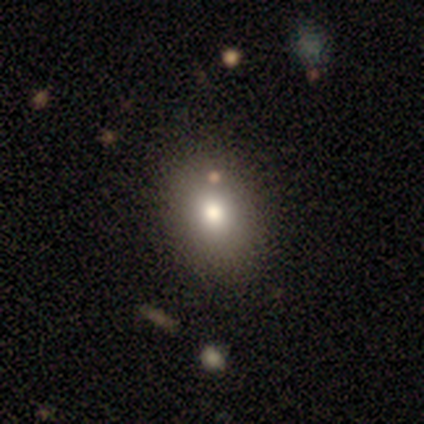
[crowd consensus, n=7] This is clearly a smooth galaxy (86%). How rounded: likely in between (67%). Merging: clearly none (100%).